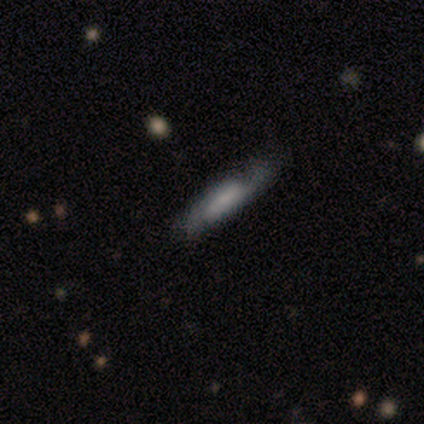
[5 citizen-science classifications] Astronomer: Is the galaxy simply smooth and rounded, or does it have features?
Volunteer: smooth — 60% (runner-up: featured or disk, 40%).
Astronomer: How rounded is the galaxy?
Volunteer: cigar-shaped — 100%.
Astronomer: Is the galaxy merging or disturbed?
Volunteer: none — 60%.